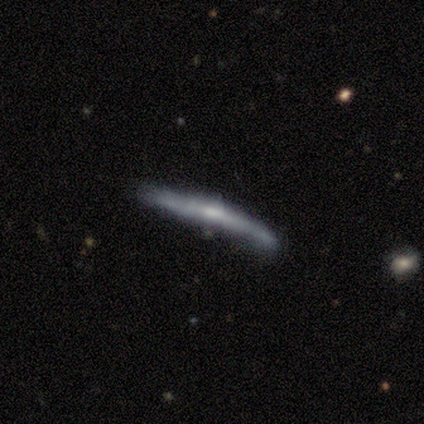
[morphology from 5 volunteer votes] Smooth or featured? featured or disk (60%)
Edge-on disk? yes (100%)
Edge-on bulge? boxy (67%)
Merging? none (60%)